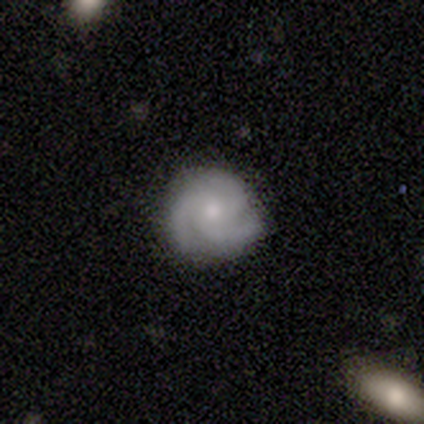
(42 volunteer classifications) featured or disk 76%, smooth 21%, star or artifact 2%. Down the decision tree: edge-on disk — no (94%); bar — no (87%); spiral arms — yes (100%); spiral arm count — 3 (90%); spiral winding — tight (50%, tied with medium); bulge size — moderate (60%); merging — none (90%).